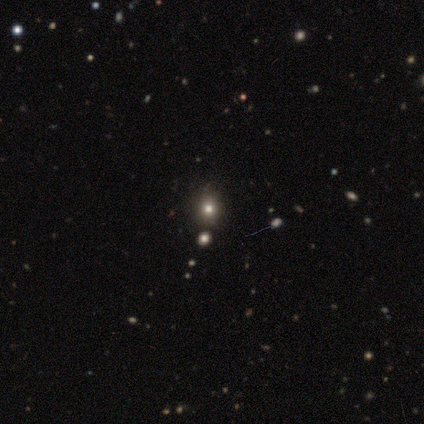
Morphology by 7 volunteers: Smooth or featured: star or artifact — 71% (smooth — 29%)